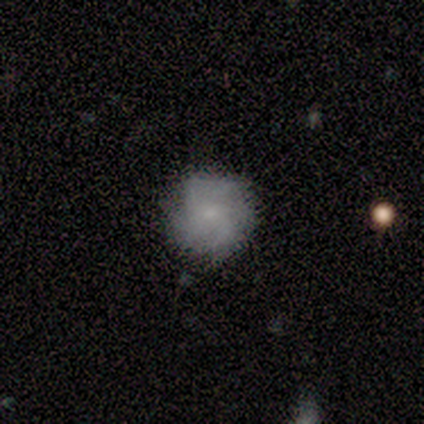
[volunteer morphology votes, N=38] Smooth or featured? 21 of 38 (55%) said smooth. How rounded? 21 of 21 (100%) said round. Merging? 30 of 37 (81%) said none.